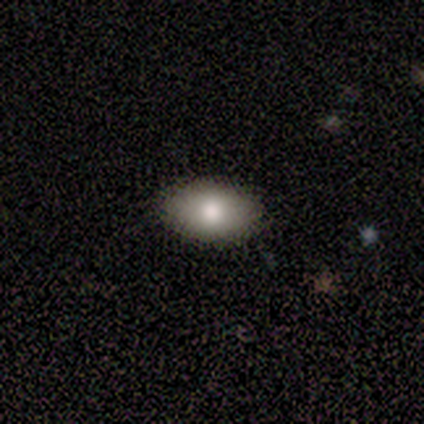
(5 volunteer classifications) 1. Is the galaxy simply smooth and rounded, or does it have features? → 80% smooth, 20% featured or disk, 0% star or artifact.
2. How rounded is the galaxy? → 100% in between, 0% round, 0% cigar-shaped.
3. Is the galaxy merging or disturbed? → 80% none, 20% minor disturbance, 0% major disturbance, 0% merger.